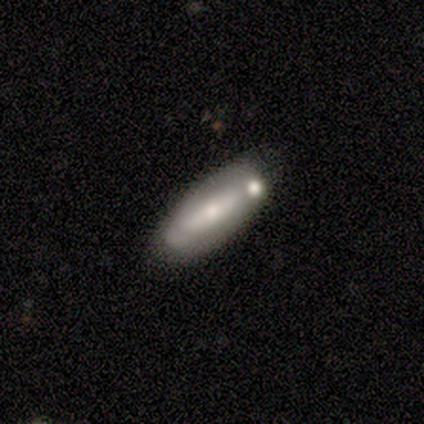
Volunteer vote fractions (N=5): Smooth or featured? 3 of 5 (60%) said smooth. How rounded? 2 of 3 (67%) said in between. Merging? 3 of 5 (60%) said none.